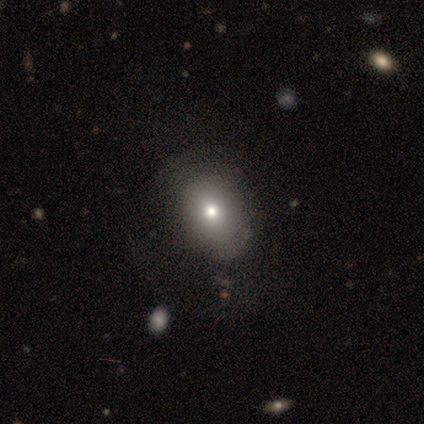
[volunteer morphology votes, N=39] Smooth or featured? 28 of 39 (72%) said smooth. How rounded? 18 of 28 (64%) said in between. Merging? 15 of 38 (39%) said none.